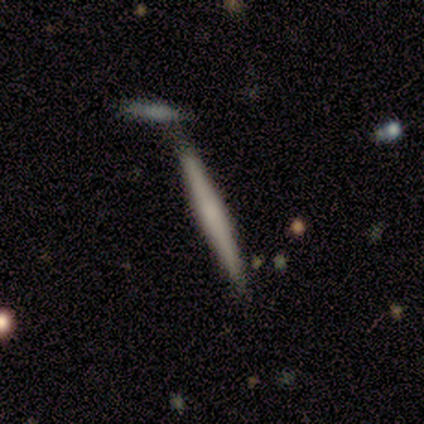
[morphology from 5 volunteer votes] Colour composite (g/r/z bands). It shows a smooth galaxy with no disk features (80%) that is cigar-shaped (100%). Merging: none (40%, tied with minor disturbance).